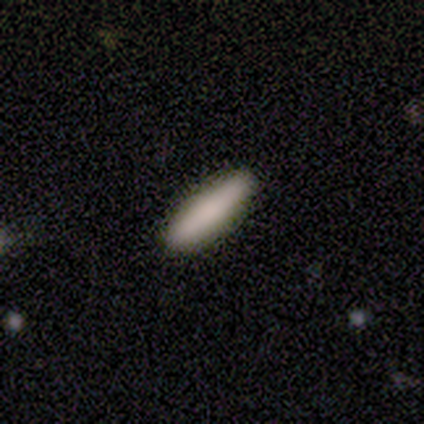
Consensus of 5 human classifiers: A smooth galaxy with no disk features (100%) that is cigar-shaped (60%). Merging: none (100%).